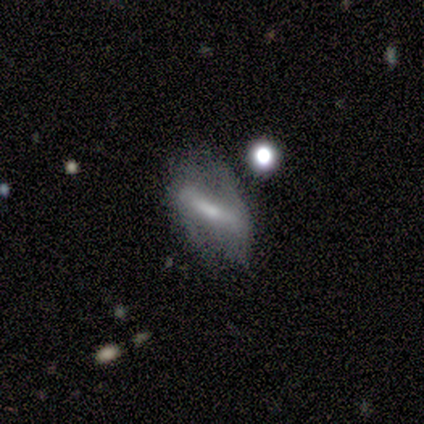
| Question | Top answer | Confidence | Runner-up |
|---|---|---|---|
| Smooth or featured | featured or disk | 80% | smooth (20%) |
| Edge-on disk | yes | 50% | tied: no (50%) |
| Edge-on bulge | boxy | 50% | tied: rounded (50%) |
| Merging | none | 40% | tied: minor disturbance (40%) |